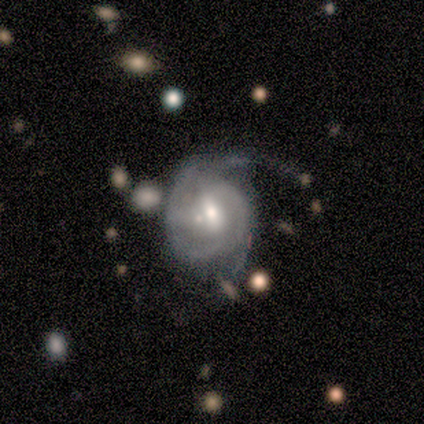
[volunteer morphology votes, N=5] smooth-or-featured: featured or disk: 60% | smooth: 20% | star or artifact: 20%
  disk-edge-on: no: 100% | yes: 0%
    bar: no: 67% | weak: 33% | strong: 0%
    has-spiral-arms: yes: 100% | no: 0%
      spiral-winding: tight: 67% | medium: 33% | loose: 0%
      spiral-arm-count: can't tell: 67% | 2: 33% | 1: 0% | 3: 0% | 4: 0% | more than 4: 0%
    bulge-size: moderate: 100% | dominant: 0% | large: 0% | small: 0% | none: 0%
  merging: none: 50% (tied) | major disturbance: 50% (tied) | minor disturbance: 0% | merger: 0%